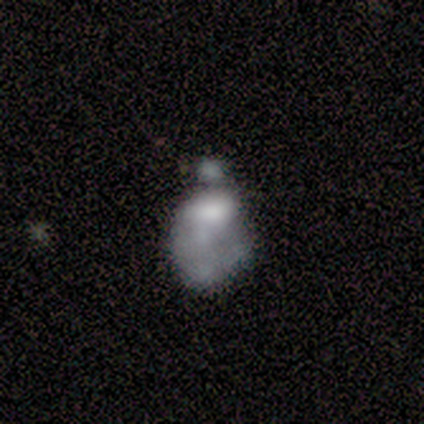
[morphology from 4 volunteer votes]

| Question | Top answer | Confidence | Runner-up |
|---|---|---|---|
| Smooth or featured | smooth | 75% | featured or disk (25%) |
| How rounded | in between | 67% | round (33%) |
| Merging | merger | 50% | minor disturbance (25%) |